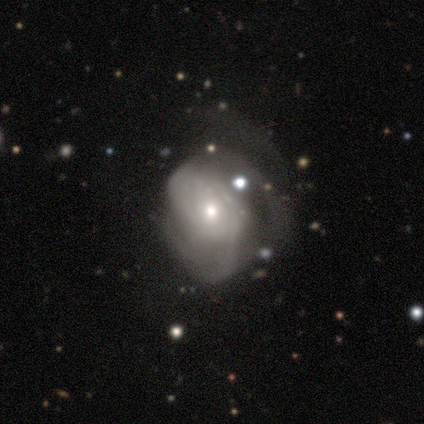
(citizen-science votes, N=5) Volunteers were most divided on "spiral winding" (3-way tie): tight: 33%, medium: 33%, loose: 33%; "bulge size" (2-way tie): moderate: 50%, small: 50%, dominant: 0%, large: 0%, none: 0%. More confident: edge-on disk — no (100%); bar — no (100%); spiral arm count — can't tell (100%); smooth or featured — featured or disk (80%); spiral arms — yes (75%); merging — none (60%).